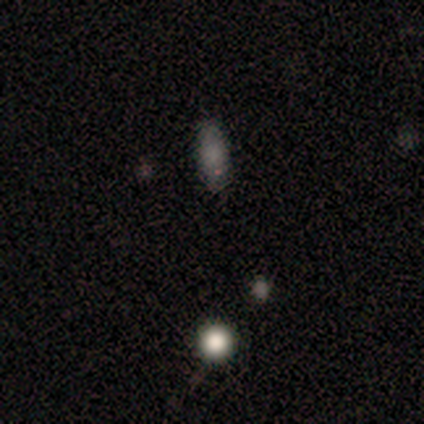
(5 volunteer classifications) Q: Smooth or featured?
A: smooth (60%); runner-up: featured or disk (20%)
Q: How rounded?
A: in between (67%); runner-up: round (33%)
Q: Merging?
A: none (100%)